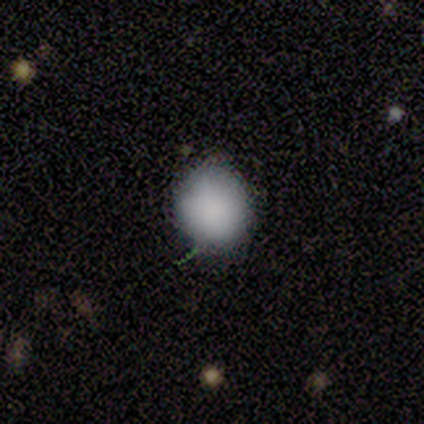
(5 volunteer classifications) Morphology: type=smooth (80%); roundness=round (100%); merging=none (100%).